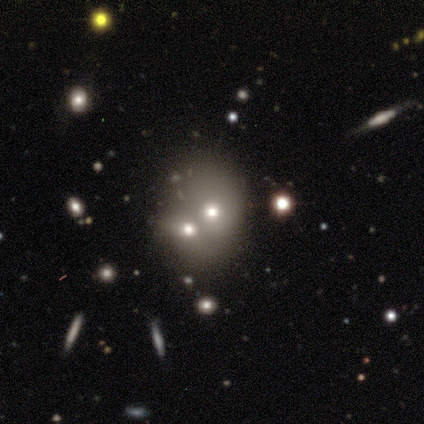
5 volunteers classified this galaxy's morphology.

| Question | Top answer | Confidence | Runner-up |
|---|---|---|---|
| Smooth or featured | star or artifact | 80% | featured or disk (20%) |